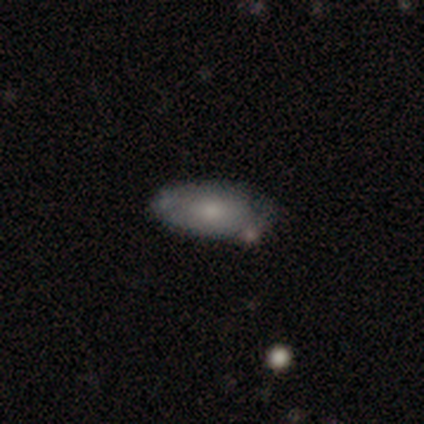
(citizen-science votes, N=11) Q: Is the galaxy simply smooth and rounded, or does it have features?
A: smooth — 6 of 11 (55%).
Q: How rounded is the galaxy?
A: in between — 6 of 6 (100%).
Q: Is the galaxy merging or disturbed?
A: none — 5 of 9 (56%).